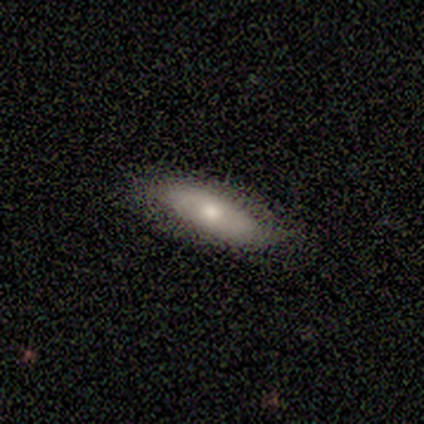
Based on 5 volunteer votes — Smooth or featured: smooth — 100%
How rounded: in between — 80% (cigar-shaped — 20%)
Merging: none — 80% (minor disturbance — 20%)